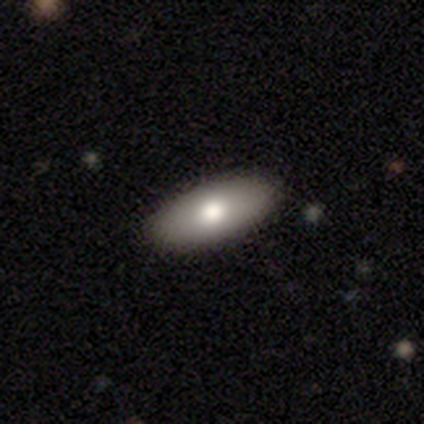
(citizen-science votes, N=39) Morphology: type=smooth (79%); roundness=in between (84%); merging=none (89%).